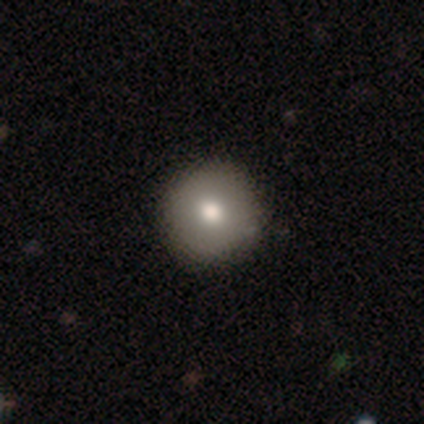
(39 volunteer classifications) Smooth or featured? smooth (87%)
How rounded? round (97%)
Merging? none (58%)